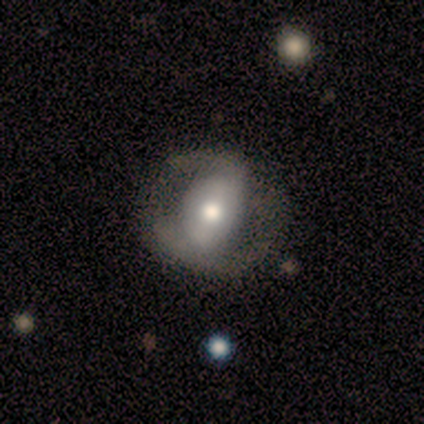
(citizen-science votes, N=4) smooth-or-featured: smooth: 50% (tied) | featured or disk: 50% (tied) | star or artifact: 0%
  how-rounded: round: 50% (tied) | in between: 50% (tied) | cigar-shaped: 0%
  merging: none: 75% | minor disturbance: 25% | major disturbance: 0% | merger: 0%